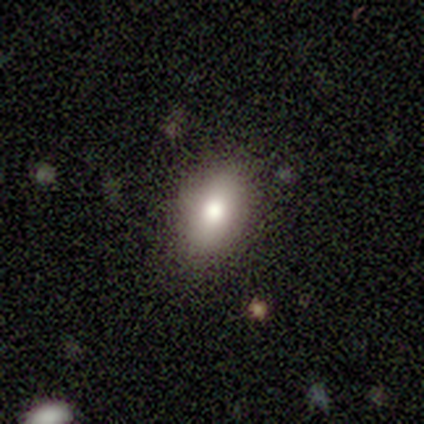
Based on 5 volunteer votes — Smooth or featured? 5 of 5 (100%) said smooth. How rounded? 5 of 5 (100%) said in between. Merging? 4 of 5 (80%) said none.